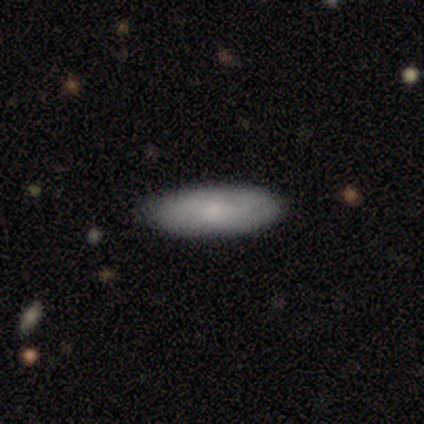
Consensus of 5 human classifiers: smooth_or_featured: smooth (p=0.60) [alt: featured or disk p=0.20]
how_rounded: in between (p=1.00)
merging: none (p=1.00)